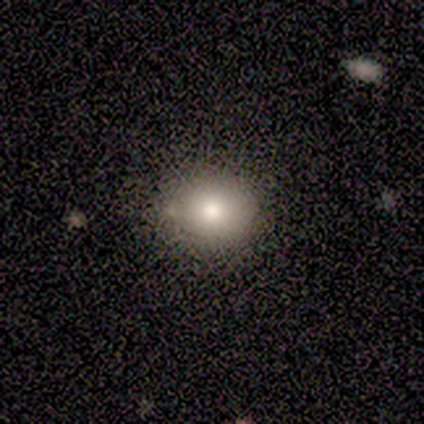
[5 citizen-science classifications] Smooth or featured? 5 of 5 (100%) said smooth. How rounded? 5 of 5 (100%) said round. Merging? 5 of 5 (100%) said none.